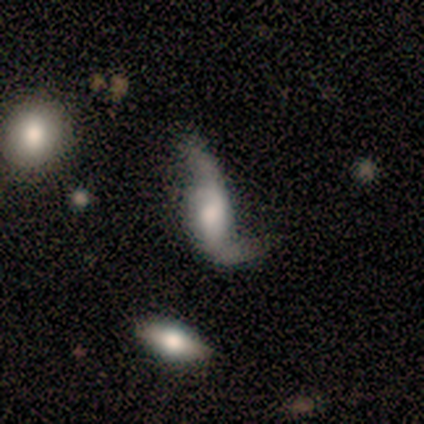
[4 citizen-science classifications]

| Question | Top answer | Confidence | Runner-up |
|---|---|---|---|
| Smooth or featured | smooth | 75% | featured or disk (25%) |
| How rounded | in between | 67% | cigar-shaped (33%) |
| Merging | major disturbance | 50% | none (25%) |